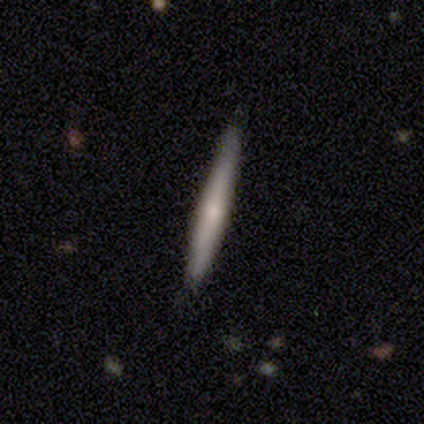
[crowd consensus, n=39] Volunteers were most divided on "smooth or featured": smooth: 56%, featured or disk: 36%, star or artifact: 8%. More confident: how rounded — cigar-shaped (95%); merging — none (75%).